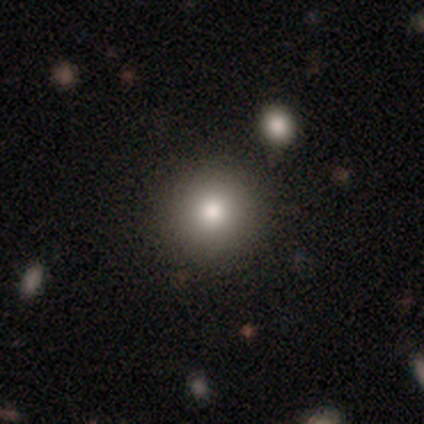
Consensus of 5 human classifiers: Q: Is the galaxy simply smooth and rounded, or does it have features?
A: smooth — 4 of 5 (80%).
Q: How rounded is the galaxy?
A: round — 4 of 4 (100%).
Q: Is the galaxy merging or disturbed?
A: none — 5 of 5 (100%).